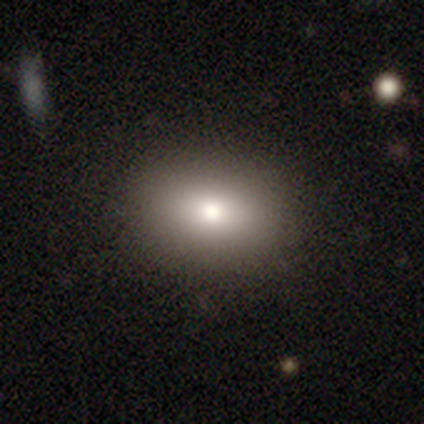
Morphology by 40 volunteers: smooth_or_featured: smooth (p=0.82) [alt: featured or disk p=0.17]
how_rounded: in between (p=0.67) [alt: round p=0.33]
merging: none (p=0.93) [alt: minor disturbance p=0.05]